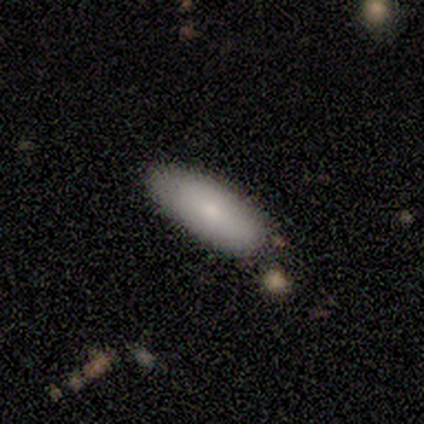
smooth-or-featured: smooth: 83% | featured or disk: 17% | star or artifact: 0%
  how-rounded: in between: 80% | cigar-shaped: 20% | round: 0%
  merging: none: 100% | minor disturbance: 0% | major disturbance: 0% | merger: 0%